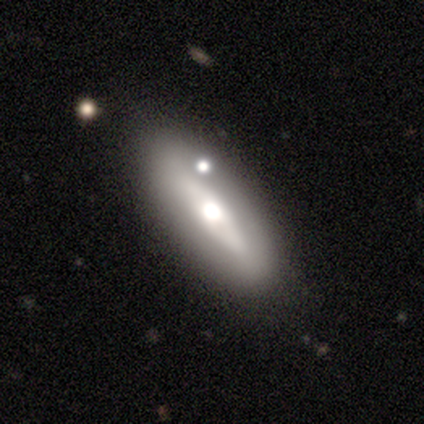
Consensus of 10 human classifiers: smooth 70%, featured or disk 30%, star or artifact 0%. Down the decision tree: how rounded — in between (57%); merging — none (70%).